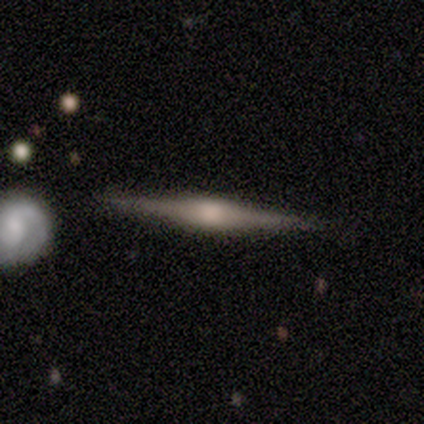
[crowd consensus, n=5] Smooth or featured: featured or disk — 60% (smooth — 20%)
Edge-on disk: yes — 100%
Edge-on bulge: rounded — 100%
Merging: none — 75% (minor disturbance — 25%)